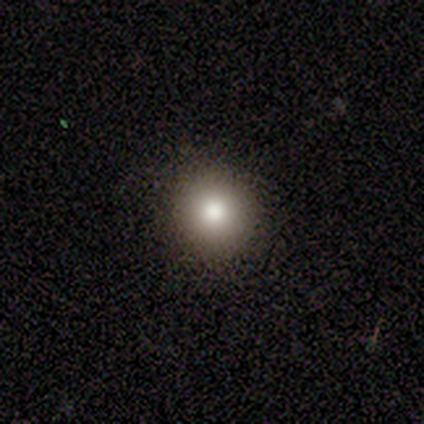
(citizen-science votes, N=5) Q: Smooth or featured?
A: smooth (100%)
Q: How rounded?
A: round (80%); runner-up: in between (20%)
Q: Merging?
A: none (100%)